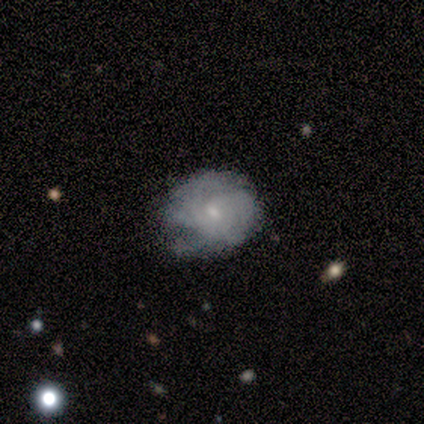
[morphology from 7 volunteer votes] A featured or disk galaxy (57%) with no bar (75%), 4 (50%, tied with can't tell) tight (50%, tied with medium) spiral arms (100%) and a moderate central bulge (75%).

Vote fractions:
- Smooth or featured? featured or disk: 57% / smooth: 43% / star or artifact: 0%
- Edge-on disk? no: 100% / yes: 0%
- Bar? no: 75% / weak: 25% / strong: 0%
- Spiral arms? yes: 100% / no: 0%
- Spiral winding? tight: 50% (tied) / medium: 50% (tied) / loose: 0%
- Spiral arm count? 4: 50% (tied) / can't tell: 50% (tied) / 1: 0% / 2: 0% / 3: 0% / more than 4: 0%
- Bulge size? moderate: 75% / small: 25% / dominant: 0% / large: 0% / none: 0%
- Merging? none: 86% / major disturbance: 14% / minor disturbance: 0% / merger: 0%